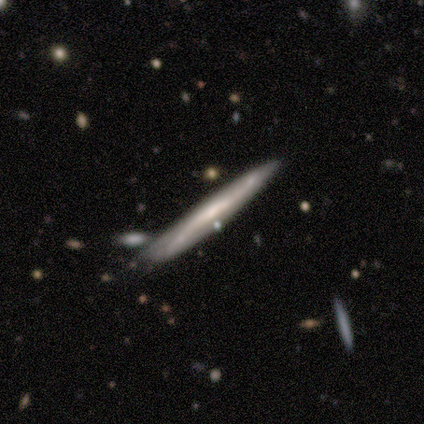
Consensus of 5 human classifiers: Smooth or featured?
  - featured or disk: 80% *
  - smooth: 20%
  - star or artifact: 0%
Edge-on disk?
  - yes: 100% *
  - no: 0%
Edge-on bulge?
  - none: 75% *
  - boxy: 25%
  - rounded: 0%
Merging?
  - none: 80% *
  - minor disturbance: 20%
  - major disturbance: 0%
  - merger: 0%